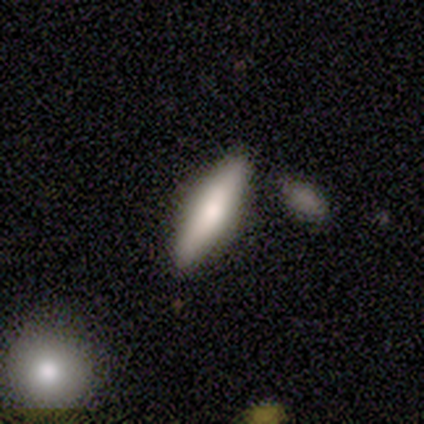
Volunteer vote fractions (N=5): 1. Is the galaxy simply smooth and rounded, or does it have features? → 80% smooth, 20% featured or disk, 0% star or artifact.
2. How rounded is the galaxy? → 75% cigar-shaped, 25% in between, 0% round.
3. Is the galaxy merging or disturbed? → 100% none, 0% minor disturbance, 0% major disturbance, 0% merger.